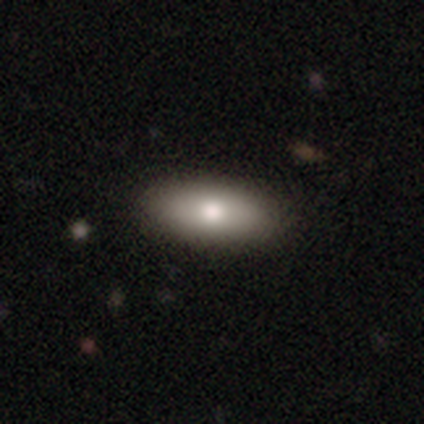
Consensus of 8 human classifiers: Volunteers were most divided on "smooth or featured": smooth: 88%, featured or disk: 12%, star or artifact: 0%. More confident: how rounded — in between (100%); merging — none (100%).